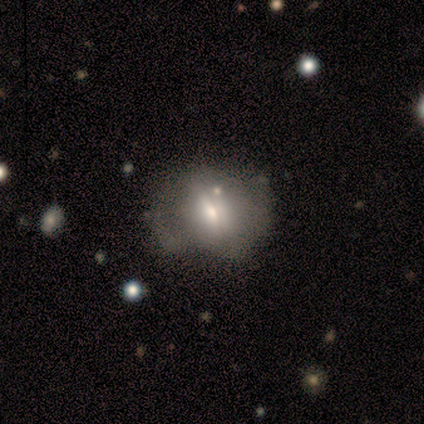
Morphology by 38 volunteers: smooth-or-featured: smooth: 66% | featured or disk: 21% | star or artifact: 13%
  how-rounded: round: 52% | in between: 48% | cigar-shaped: 0%
  merging: none: 52% | minor disturbance: 33% | major disturbance: 9% | merger: 6%